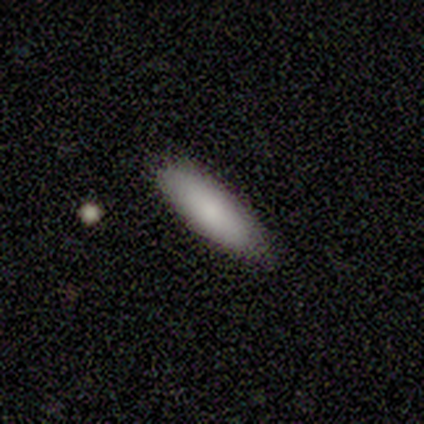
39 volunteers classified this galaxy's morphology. smooth 85%, featured or disk 10%, star or artifact 5%. Down the decision tree: how rounded — cigar-shaped (64%); merging — none (81%).